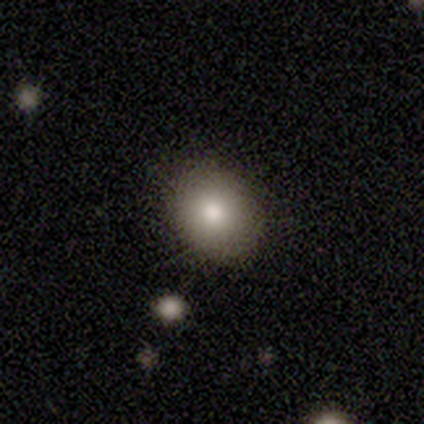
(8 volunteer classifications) Smooth or featured: smooth — 100%
How rounded: round — 50% (tied with in between — 50%)
Merging: none — 100%